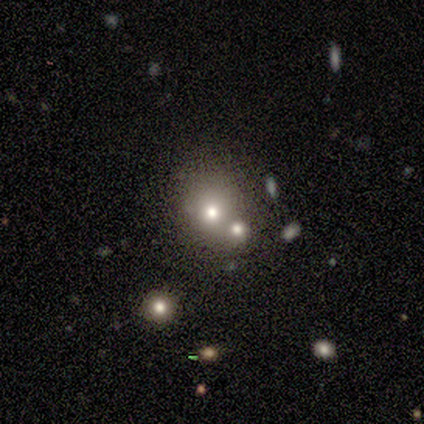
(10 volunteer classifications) This is likely a smooth galaxy (60%). How rounded: clearly round (83%). Merging: marginally merger (44%).